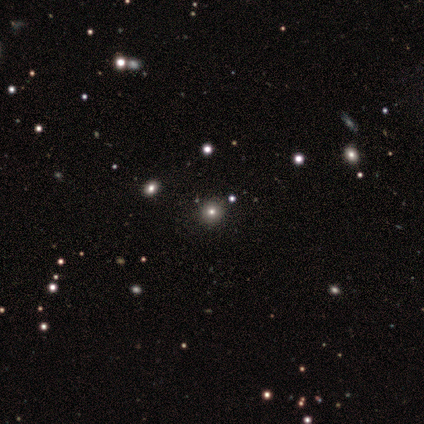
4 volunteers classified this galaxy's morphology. Volunteers were most divided on "smooth or featured" (2-way tie): smooth: 50%, star or artifact: 50%, featured or disk: 0%. More confident: how rounded — round (100%); merging — none (100%).